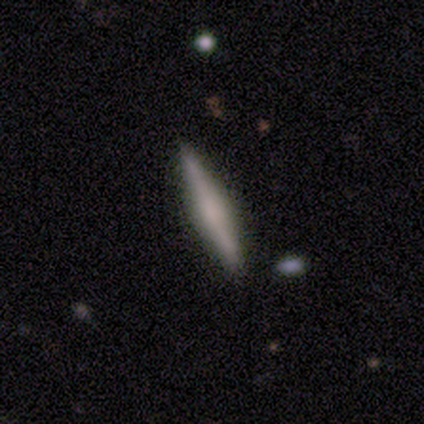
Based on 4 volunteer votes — Q: Smooth or featured?
A: smooth (50%); tied with: featured or disk (50%)
Q: How rounded?
A: cigar-shaped (100%)
Q: Merging?
A: none (75%); runner-up: minor disturbance (25%)